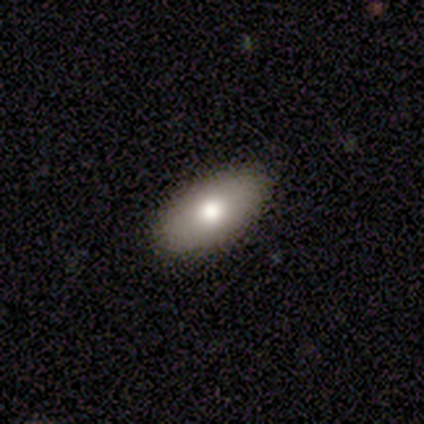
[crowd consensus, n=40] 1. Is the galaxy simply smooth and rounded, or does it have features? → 85% smooth, 12% featured or disk, 2% star or artifact.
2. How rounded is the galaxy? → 100% in between, 0% round, 0% cigar-shaped.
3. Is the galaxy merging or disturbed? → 92% none, 5% major disturbance, 3% minor disturbance, 0% merger.